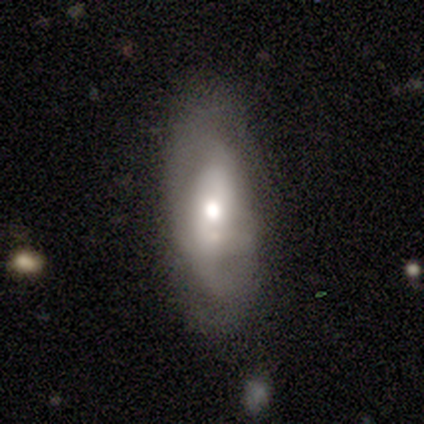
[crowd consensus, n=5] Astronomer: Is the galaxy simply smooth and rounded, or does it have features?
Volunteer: featured or disk — 80%.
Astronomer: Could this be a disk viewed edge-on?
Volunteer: no — 75%.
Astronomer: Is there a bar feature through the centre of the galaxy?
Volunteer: strong — 33%, tied with weak and no at 33%.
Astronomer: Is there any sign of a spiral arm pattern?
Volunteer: no — 67%.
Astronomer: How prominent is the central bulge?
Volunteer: moderate — 100%.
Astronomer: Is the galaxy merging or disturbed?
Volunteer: none — 60%.